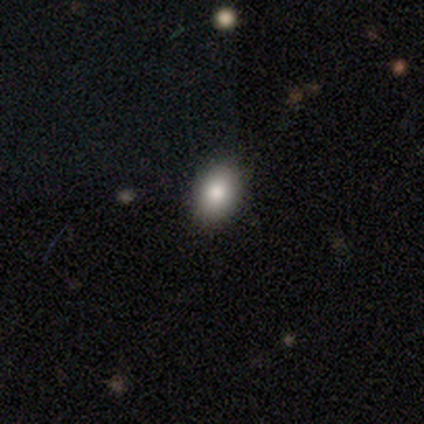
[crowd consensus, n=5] smooth-or-featured: smooth: 80% | star or artifact: 20% | featured or disk: 0%
  how-rounded: in between: 75% | round: 25% | cigar-shaped: 0%
  merging: none: 100% | minor disturbance: 0% | major disturbance: 0% | merger: 0%